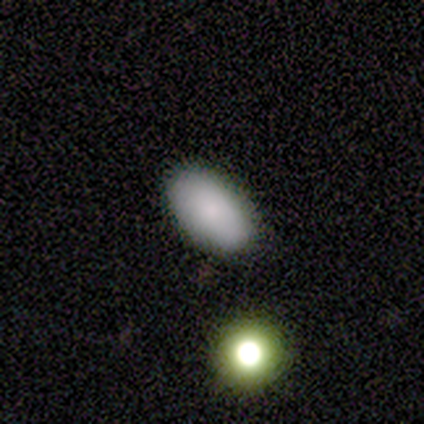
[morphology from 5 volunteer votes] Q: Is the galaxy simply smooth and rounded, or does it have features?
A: smooth — 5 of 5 (100%).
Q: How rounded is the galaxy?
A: in between — 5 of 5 (100%).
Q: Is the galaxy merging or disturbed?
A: none — 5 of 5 (100%).